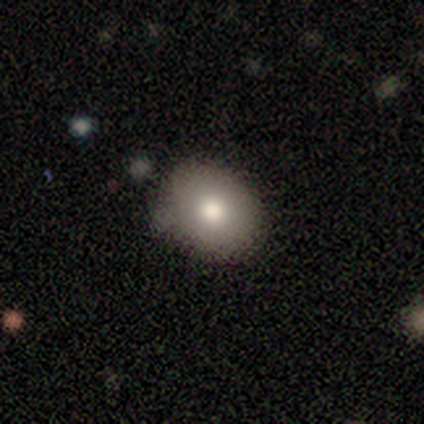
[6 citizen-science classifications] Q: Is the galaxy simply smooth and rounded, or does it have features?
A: smooth — 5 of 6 (83%).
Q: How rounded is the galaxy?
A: in between — 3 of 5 (60%).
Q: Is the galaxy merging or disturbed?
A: none — 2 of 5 (40%, tied with minor disturbance).